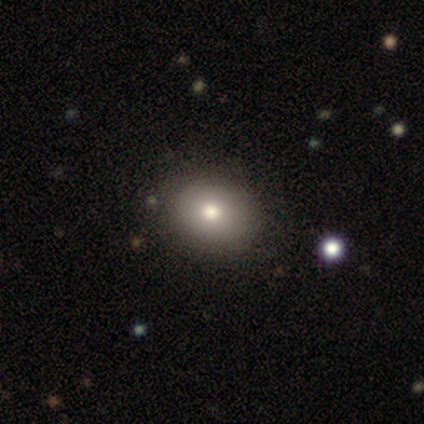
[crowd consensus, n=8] Q: Smooth or featured?
A: smooth (62%); runner-up: featured or disk (25%)
Q: How rounded?
A: in between (60%); runner-up: round (40%)
Q: Merging?
A: none (71%); runner-up: minor disturbance (29%)